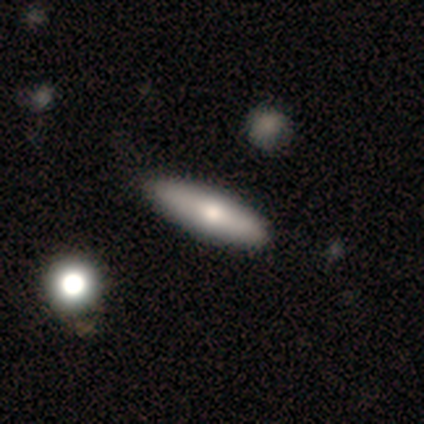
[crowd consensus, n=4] This appears to be a smooth galaxy with no disk features (75%) that is cigar-shaped (100%). Merging: none (100%).